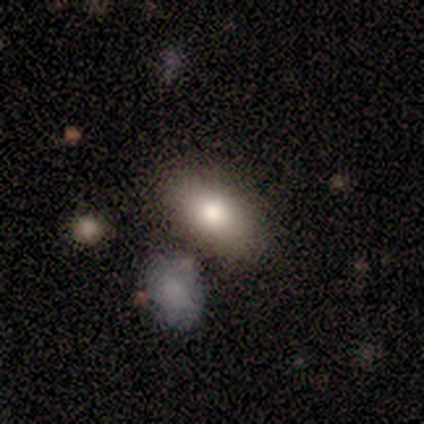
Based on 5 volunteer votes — Q: Smooth or featured?
A: smooth (100%)
Q: How rounded?
A: in between (100%)
Q: Merging?
A: none (60%); runner-up: minor disturbance (40%)